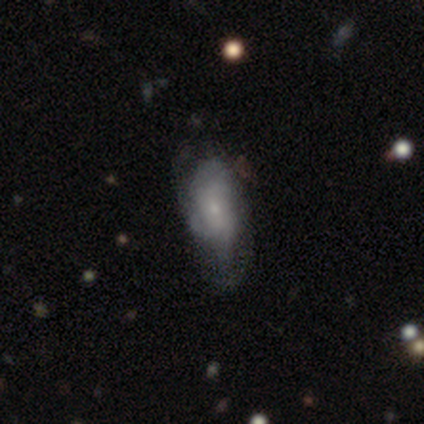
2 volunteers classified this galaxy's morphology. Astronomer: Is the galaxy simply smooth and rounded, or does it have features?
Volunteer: smooth — 50%, tied with featured or disk at 50%.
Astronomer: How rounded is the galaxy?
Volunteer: cigar-shaped — 100%.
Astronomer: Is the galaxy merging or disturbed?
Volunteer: none — 50%, tied with major disturbance at 50%.